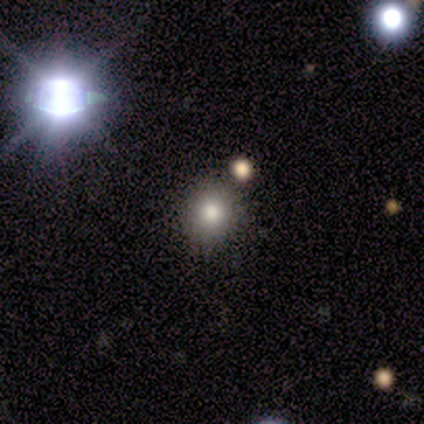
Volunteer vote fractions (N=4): Morphology: type=star or artifact (50%).